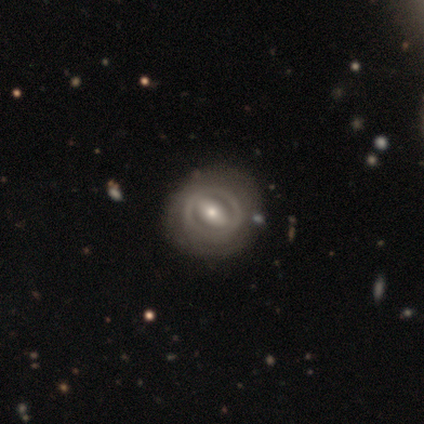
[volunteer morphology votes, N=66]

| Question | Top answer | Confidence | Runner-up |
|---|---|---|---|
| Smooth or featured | featured or disk | 85% | smooth (12%) |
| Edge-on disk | no | 96% | yes (4%) |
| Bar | strong | 56% | weak (31%) |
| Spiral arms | no | 56% | yes (44%) |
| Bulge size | moderate | 59% | small (39%) |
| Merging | none | 75% | minor disturbance (12%) |